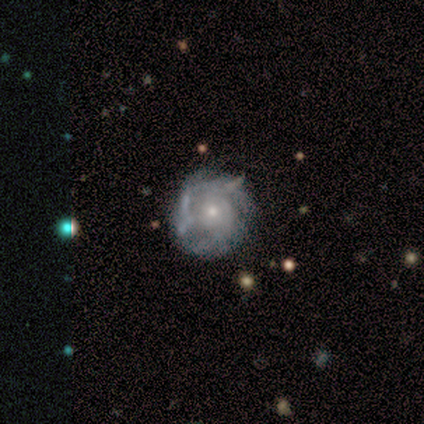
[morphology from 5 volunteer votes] featured or disk 100%, smooth 0%, star or artifact 0%. Down the decision tree: edge-on disk — no (100%); bar — no (60%); spiral arms — yes (100%); spiral arm count — can't tell (100%); spiral winding — medium (80%); bulge size — moderate (60%); merging — none (100%).